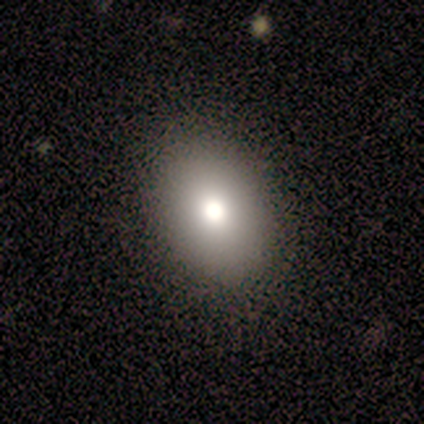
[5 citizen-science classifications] Morphology: type=smooth (100%); roundness=in between (100%); merging=none (100%).